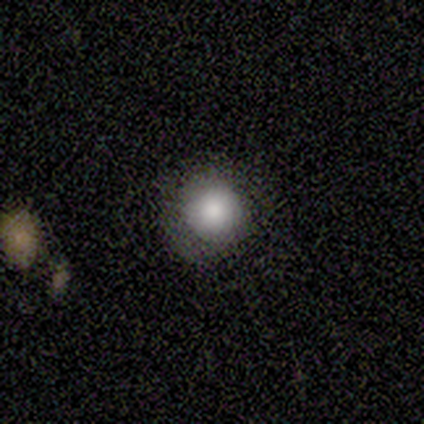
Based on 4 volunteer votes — Volunteers were most divided on "smooth or featured" (2-way tie): smooth: 50%, featured or disk: 50%, star or artifact: 0%. More confident: how rounded — round (100%); merging — none (100%).